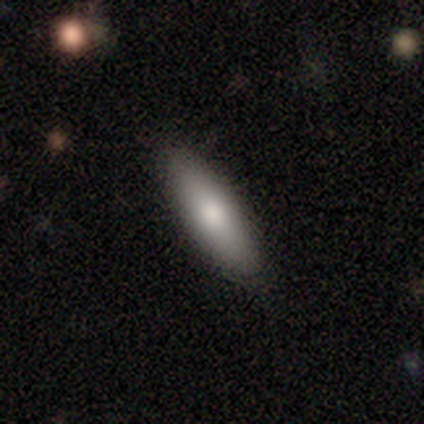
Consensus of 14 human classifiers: Smooth or featured? 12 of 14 (86%) said smooth. How rounded? 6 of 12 (50%, tied with cigar-shaped) said in between. Merging? 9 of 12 (75%) said none.